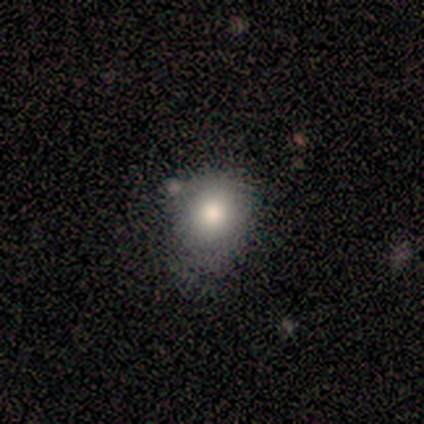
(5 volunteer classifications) Volunteers were most divided on "smooth or featured": smooth: 60%, star or artifact: 40%, featured or disk: 0%. More confident: how rounded — round (67%); merging — none (67%).